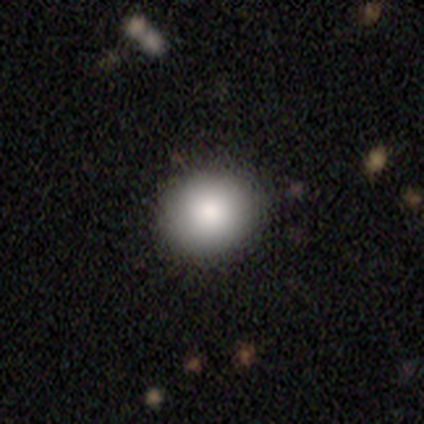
Q: Smooth or featured?
A: smooth (92%); runner-up: star or artifact (8%)
Q: How rounded?
A: round (86%); runner-up: in between (14%)
Q: Merging?
A: none (92%); runner-up: minor disturbance (6%)